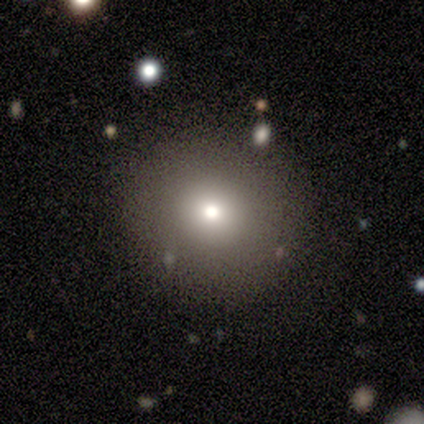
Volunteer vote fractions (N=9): Morphology: type=smooth (89%); roundness=round (100%); merging=none (100%).